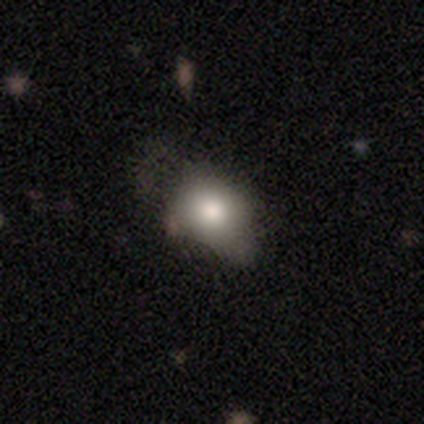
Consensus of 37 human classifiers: This is clearly a smooth galaxy (84%). How rounded: possibly in between (58%). Merging: marginally none (31%).